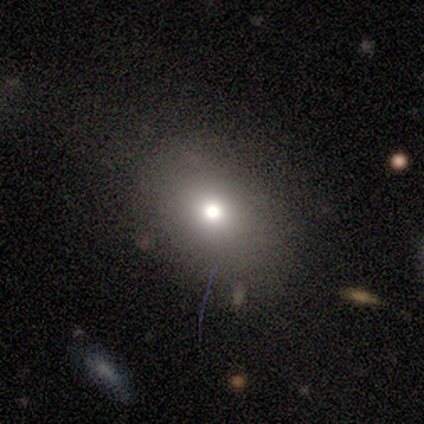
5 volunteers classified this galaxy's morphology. This is likely a smooth galaxy (60%). How rounded: clearly in between (100%). Merging: clearly none (100%).